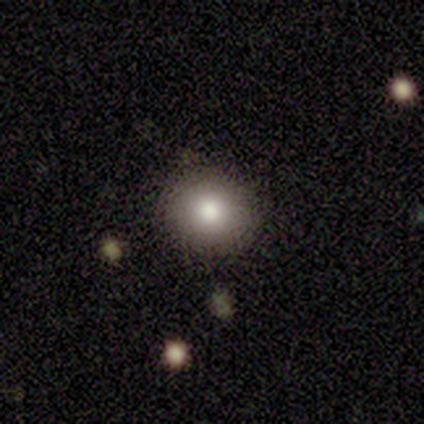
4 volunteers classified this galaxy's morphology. smooth_or_featured: smooth (p=0.75) [alt: star or artifact p=0.25]
how_rounded: round (p=1.00)
merging: none (p=1.00)